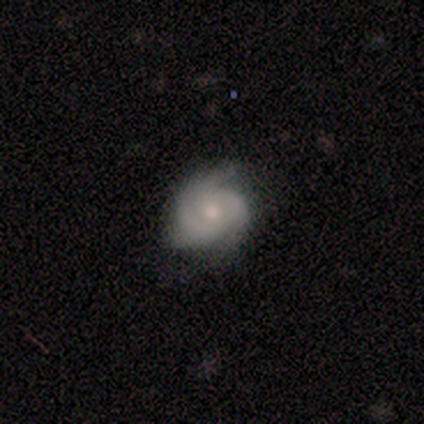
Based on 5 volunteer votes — Smooth or featured? 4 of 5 (80%) said featured or disk. Edge-on disk? 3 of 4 (75%) said no. Bar? 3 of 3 (100%) said no. Spiral arms? 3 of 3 (100%) said yes. Spiral winding? 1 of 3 (33%, tied with medium and loose) said tight. Spiral arm count? 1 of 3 (33%, tied with 3 and can't tell) said 2. Bulge size? 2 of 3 (67%) said small. Merging? 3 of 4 (75%) said none.